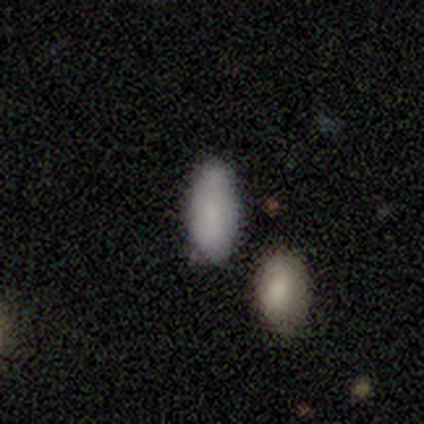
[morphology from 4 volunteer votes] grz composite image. It shows a smooth galaxy with no disk features (100%) that is in between round and cigar-shaped (75%). Merging: none (75%).